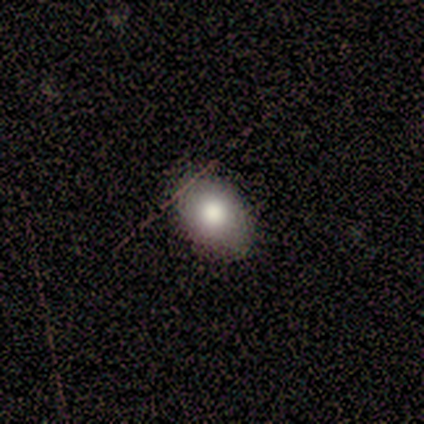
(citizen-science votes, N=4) This is possibly a smooth galaxy (50%). How rounded: possibly round (50%, tied with in between). Merging: likely none (67%).